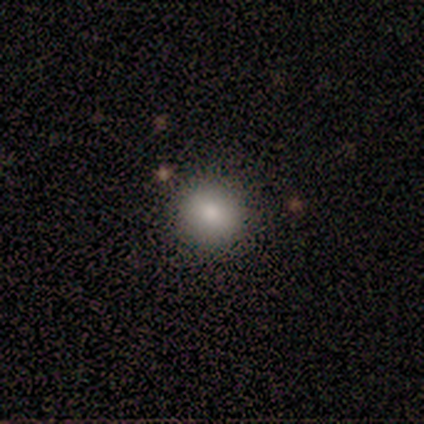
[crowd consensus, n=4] Smooth or featured?
  - smooth: 50% *
  - featured or disk: 25%
  - star or artifact: 25%
How rounded?
  - round: 100% *
  - in between: 0%
  - cigar-shaped: 0%
Merging?
  - none: 100% *
  - minor disturbance: 0%
  - major disturbance: 0%
  - merger: 0%